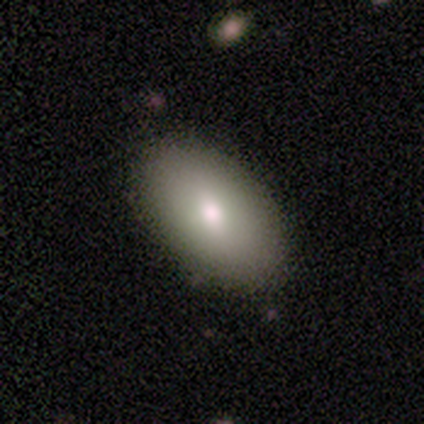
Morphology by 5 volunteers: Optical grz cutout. It shows a smooth galaxy with no disk features (80%) that is in between round and cigar-shaped (100%). Merging: none (100%).